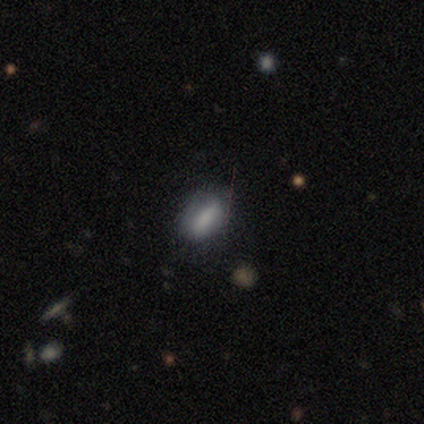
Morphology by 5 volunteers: Smooth or featured? 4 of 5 (80%) said smooth. How rounded? 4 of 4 (100%) said in between. Merging? 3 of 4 (75%) said none.